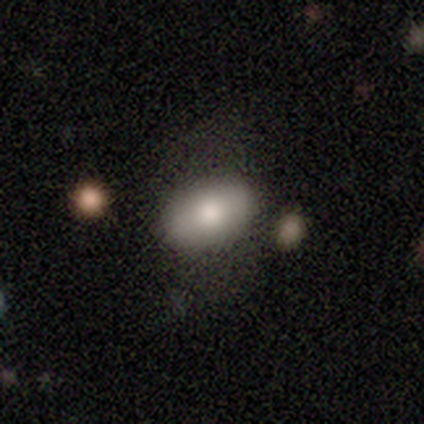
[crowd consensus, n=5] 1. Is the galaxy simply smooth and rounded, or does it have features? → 80% smooth, 20% featured or disk, 0% star or artifact.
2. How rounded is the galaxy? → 100% in between, 0% round, 0% cigar-shaped.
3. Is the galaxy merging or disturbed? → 80% none, 20% major disturbance, 0% minor disturbance, 0% merger.